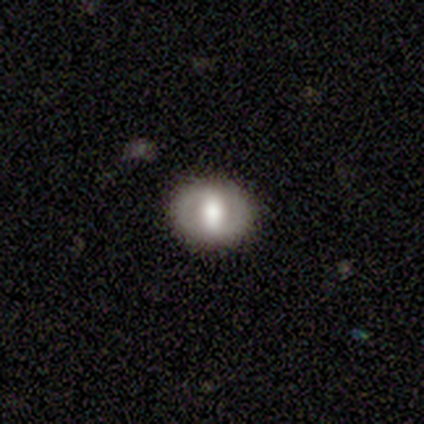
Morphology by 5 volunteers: Smooth or featured? 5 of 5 (100%) said featured or disk. Edge-on disk? 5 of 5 (100%) said no. Bar? 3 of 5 (60%) said strong. Spiral arms? 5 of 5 (100%) said no. Bulge size? 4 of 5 (80%) said large. Merging? 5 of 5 (100%) said none.